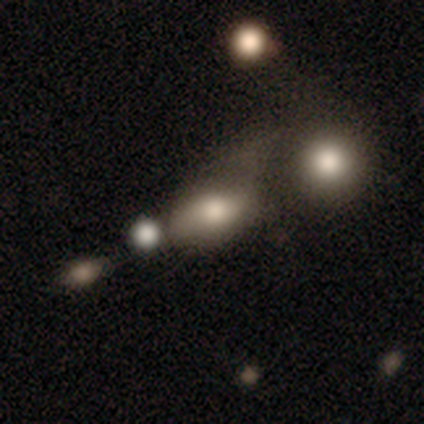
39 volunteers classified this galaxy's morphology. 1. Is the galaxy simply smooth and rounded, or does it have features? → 69% smooth, 18% featured or disk, 13% star or artifact.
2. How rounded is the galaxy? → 78% in between, 19% round, 4% cigar-shaped.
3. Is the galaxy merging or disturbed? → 35% merger, 32% none, 26% minor disturbance, 6% major disturbance.